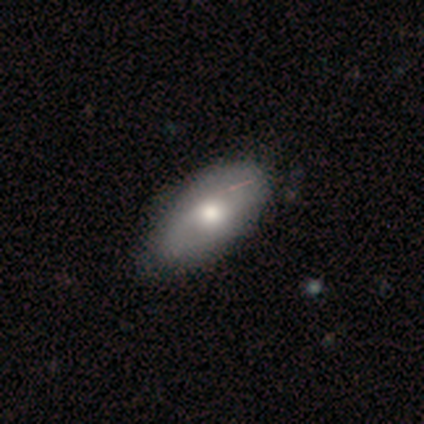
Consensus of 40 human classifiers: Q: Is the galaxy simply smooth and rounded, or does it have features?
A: smooth — 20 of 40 (50%).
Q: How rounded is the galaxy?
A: in between — 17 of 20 (85%).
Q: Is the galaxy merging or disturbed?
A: none — 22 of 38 (58%).